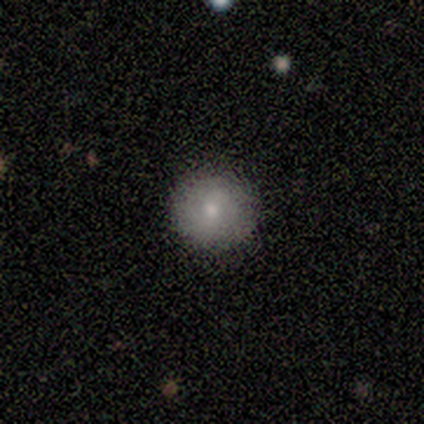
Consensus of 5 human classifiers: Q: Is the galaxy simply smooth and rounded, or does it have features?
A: smooth — 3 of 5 (60%).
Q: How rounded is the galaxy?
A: round — 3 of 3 (100%).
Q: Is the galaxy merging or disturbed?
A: none — 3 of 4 (75%).